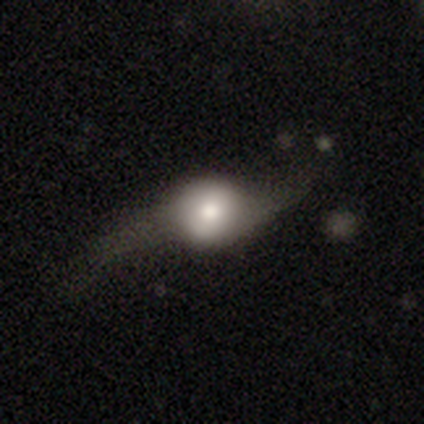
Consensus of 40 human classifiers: This appears to be a featured or disk galaxy (55%) with no bar (81%), 2 (85%) loose (92%) spiral arms (81%) and a moderate central bulge (56%). Merging: major disturbance (46%).